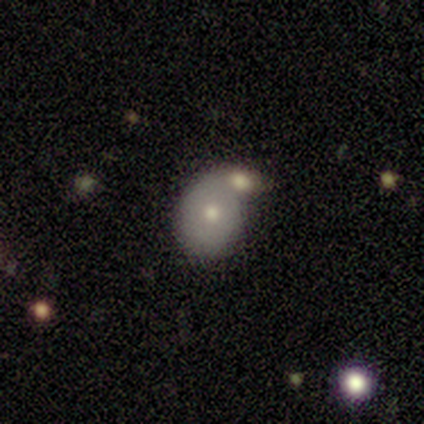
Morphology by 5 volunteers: This appears to be a smooth galaxy with no disk features (80%) that is round (50%, tied with in between). Merging: merger (60%).